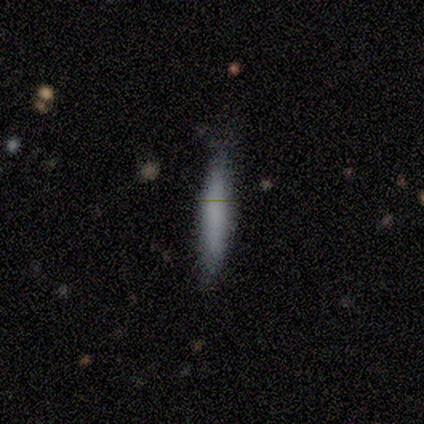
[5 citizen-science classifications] smooth_or_featured: smooth (p=1.00)
how_rounded: cigar-shaped (p=0.80) [alt: in between p=0.20]
merging: none (p=0.80) [alt: major disturbance p=0.20]